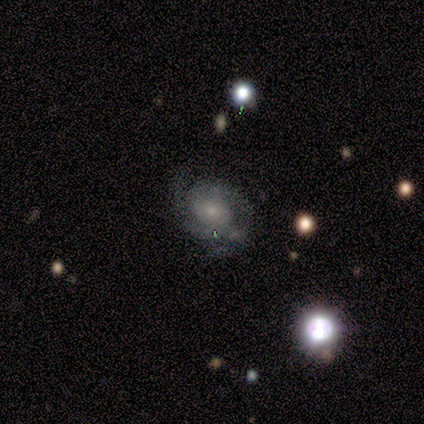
A featured or disk galaxy (80%) with no bar (75%), 2 (75%) medium (50%) spiral arms (100%) and a small central bulge (75%).

Vote fractions:
- Smooth or featured? featured or disk: 80% / smooth: 20% / star or artifact: 0%
- Edge-on disk? no: 100% / yes: 0%
- Bar? no: 75% / weak: 25% / strong: 0%
- Spiral arms? yes: 100% / no: 0%
- Spiral winding? medium: 50% / tight: 25% / loose: 25%
- Spiral arm count? 2: 75% / can't tell: 25% / 1: 0% / 3: 0% / 4: 0% / more than 4: 0%
- Bulge size? small: 75% / moderate: 25% / dominant: 0% / large: 0% / none: 0%
- Merging? none: 80% / minor disturbance: 20% / major disturbance: 0% / merger: 0%